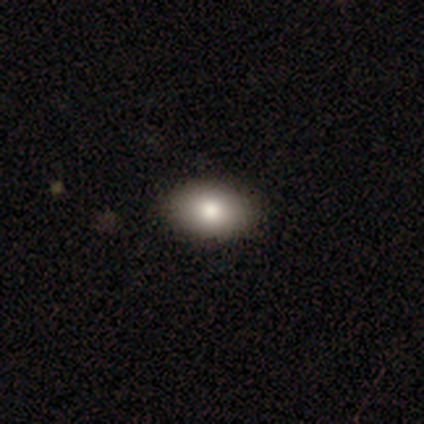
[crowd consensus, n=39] This is clearly a smooth galaxy (85%). How rounded: clearly in between (97%). Merging: clearly none (100%).